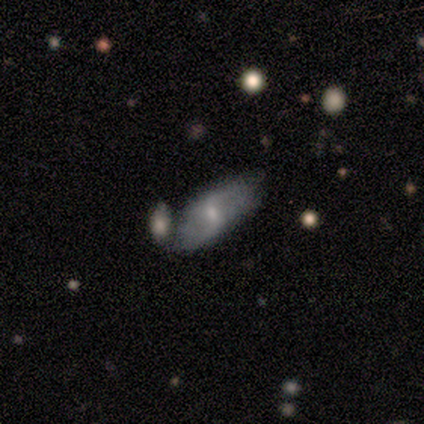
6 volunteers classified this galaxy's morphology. Smooth or featured: featured or disk — 67% (smooth — 33%)
Edge-on disk: no — 100%
Bar: weak — 50% (tied with no — 50%)
Spiral arms: yes — 75% (no — 25%)
Spiral winding: medium — 67% (loose — 33%)
Spiral arm count: 2 — 67% (can't tell — 33%)
Bulge size: moderate — 75% (small — 25%)
Merging: none — 33% (tied with minor disturbance — 33%)